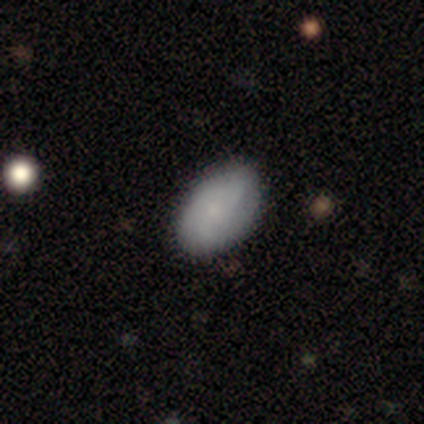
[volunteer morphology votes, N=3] Q: Smooth or featured?
A: smooth (67%); runner-up: featured or disk (33%)
Q: How rounded?
A: in between (100%)
Q: Merging?
A: none (67%); runner-up: minor disturbance (33%)